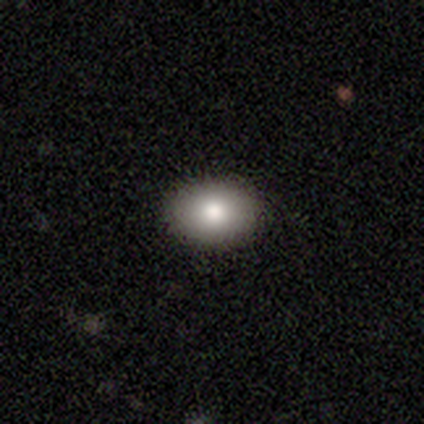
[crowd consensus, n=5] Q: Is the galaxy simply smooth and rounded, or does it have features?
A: smooth — 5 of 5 (100%).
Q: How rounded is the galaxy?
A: in between — 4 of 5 (80%).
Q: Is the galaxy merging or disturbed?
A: none — 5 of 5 (100%).